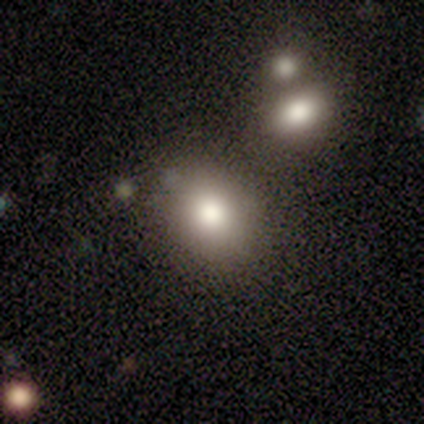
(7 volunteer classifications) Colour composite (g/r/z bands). It shows a smooth galaxy with no disk features (86%) that is round (67%). Merging: none (86%).